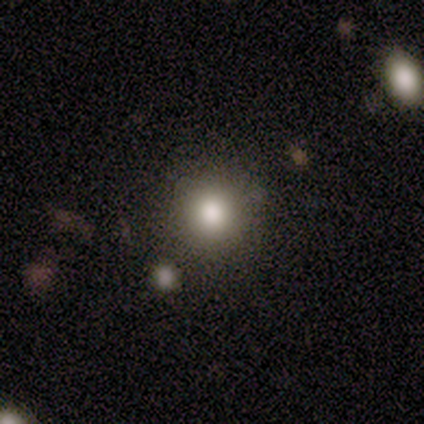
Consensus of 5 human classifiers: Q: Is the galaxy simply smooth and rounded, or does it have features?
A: smooth — 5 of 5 (100%).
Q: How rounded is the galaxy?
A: round — 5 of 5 (100%).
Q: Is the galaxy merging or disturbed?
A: none — 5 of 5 (100%).